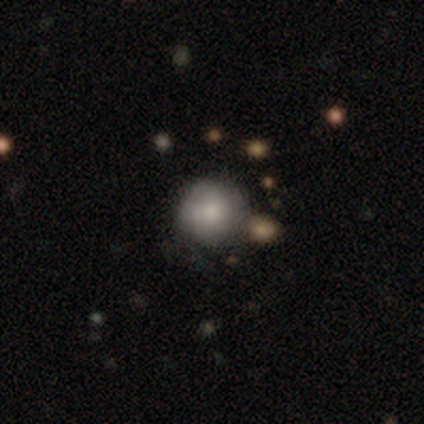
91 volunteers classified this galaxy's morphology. type=smooth (77%); roundness=round (94%); merging=none (71%).